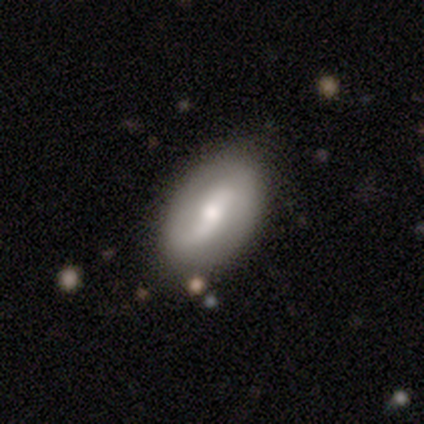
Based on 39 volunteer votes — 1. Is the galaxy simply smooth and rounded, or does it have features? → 62% featured or disk, 36% smooth, 3% star or artifact.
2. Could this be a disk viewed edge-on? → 88% no, 12% yes.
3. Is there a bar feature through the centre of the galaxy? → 52% weak, 24% strong, 24% no.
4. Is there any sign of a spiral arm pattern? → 86% yes, 14% no.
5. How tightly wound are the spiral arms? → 72% loose, 22% medium, 6% tight.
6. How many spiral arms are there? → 94% 2, 6% can't tell, 0% 1, 0% 3, 0% 4, 0% more than 4.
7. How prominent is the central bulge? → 62% moderate, 33% small, 5% large, 0% dominant, 0% none.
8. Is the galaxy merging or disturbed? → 82% none, 11% minor disturbance, 5% major disturbance, 3% merger.